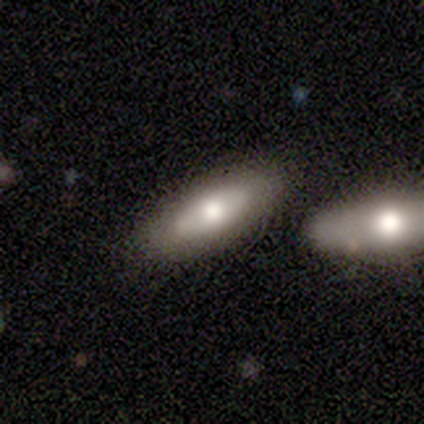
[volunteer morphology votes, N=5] Smooth or featured? smooth (80%)
How rounded? in between (75%)
Merging? none (60%)